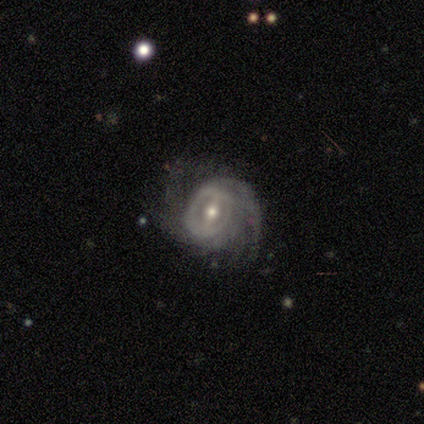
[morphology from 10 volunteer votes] A featured or disk galaxy (90%) with a strong bar (67%), 2 (22%, tied with 4 and can't tell) tight (56%) spiral arms (100%) and a moderate central bulge (78%).

Vote fractions:
- Smooth or featured? featured or disk: 90% / smooth: 10% / star or artifact: 0%
- Edge-on disk? no: 100% / yes: 0%
- Bar? strong: 67% / weak: 33% / no: 0%
- Spiral arms? yes: 100% / no: 0%
- Spiral winding? tight: 56% / medium: 33% / loose: 11%
- Spiral arm count? 2: 22% (tied) / 4: 22% (tied) / can't tell: 22% (tied) / 1: 11% / 3: 11% / more than 4: 11%
- Bulge size? moderate: 78% / small: 22% / dominant: 0% / large: 0% / none: 0%
- Merging? none: 60% / minor disturbance: 30% / major disturbance: 10% / merger: 0%